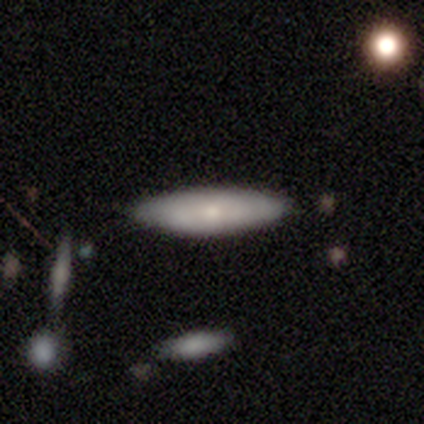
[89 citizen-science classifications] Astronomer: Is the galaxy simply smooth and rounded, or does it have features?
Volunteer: smooth — 78%.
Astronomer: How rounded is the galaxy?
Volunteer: cigar-shaped — 68%.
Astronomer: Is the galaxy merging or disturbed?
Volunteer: none — 80%.